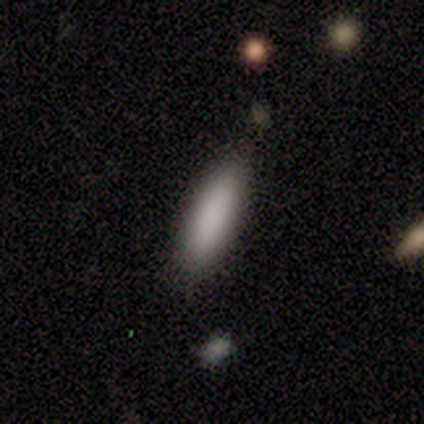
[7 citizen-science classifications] Smooth or featured?
  - smooth: 86% *
  - star or artifact: 14%
  - featured or disk: 0%
How rounded?
  - in between: 50% * (tied)
  - cigar-shaped: 50% * (tied)
  - round: 0%
Merging?
  - none: 100% *
  - minor disturbance: 0%
  - major disturbance: 0%
  - merger: 0%